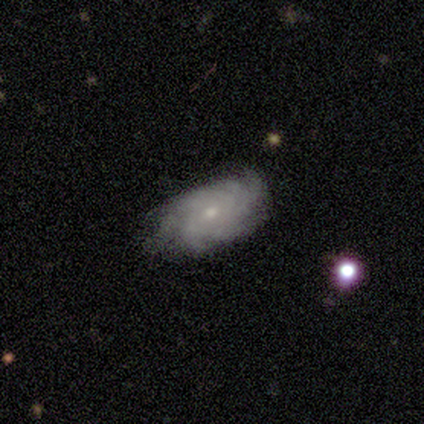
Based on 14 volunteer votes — A featured or disk galaxy (64%) with no bar (100%), more than 4 (67%) tight (83%) spiral arms (75%) and a small central bulge (62%).

Vote fractions:
- Smooth or featured? featured or disk: 64% / smooth: 29% / star or artifact: 7%
- Edge-on disk? no: 89% / yes: 11%
- Bar? no: 100% / strong: 0% / weak: 0%
- Spiral arms? yes: 75% / no: 25%
- Spiral winding? tight: 83% / loose: 17% / medium: 0%
- Spiral arm count? more than 4: 67% / can't tell: 33% / 1: 0% / 2: 0% / 3: 0% / 4: 0%
- Bulge size? small: 62% / moderate: 38% / dominant: 0% / large: 0% / none: 0%
- Merging? none: 77% / minor disturbance: 23% / major disturbance: 0% / merger: 0%